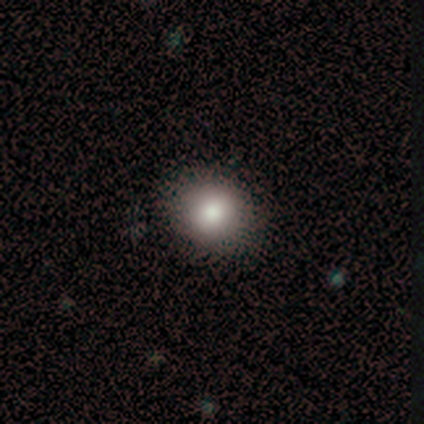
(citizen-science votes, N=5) This is clearly a smooth galaxy (100%). How rounded: likely round (60%). Merging: clearly none (100%).